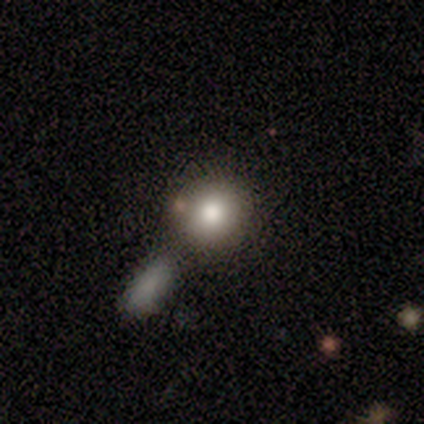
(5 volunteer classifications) Smooth or featured?
  - smooth: 80% *
  - featured or disk: 20%
  - star or artifact: 0%
How rounded?
  - round: 75% *
  - in between: 25%
  - cigar-shaped: 0%
Merging?
  - none: 60% *
  - minor disturbance: 20%
  - merger: 20%
  - major disturbance: 0%